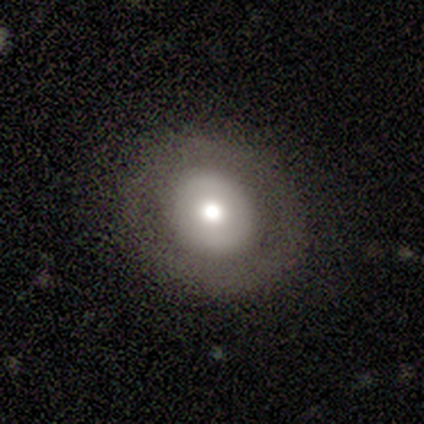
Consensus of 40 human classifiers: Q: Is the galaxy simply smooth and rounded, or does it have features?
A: featured or disk — 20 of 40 (50%).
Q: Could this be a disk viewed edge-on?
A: no — 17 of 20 (85%).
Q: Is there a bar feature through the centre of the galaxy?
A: no — 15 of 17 (88%).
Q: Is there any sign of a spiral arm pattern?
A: no — 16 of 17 (94%).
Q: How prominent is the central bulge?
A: moderate — 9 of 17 (53%).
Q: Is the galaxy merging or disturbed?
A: none — 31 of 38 (82%).